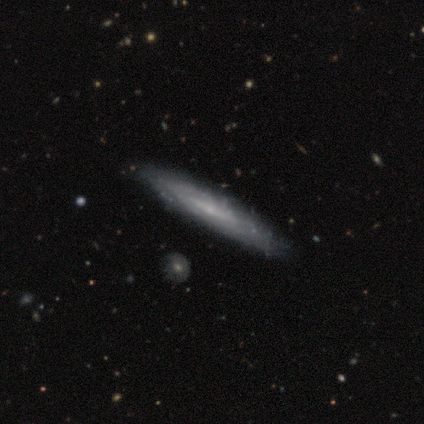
This appears to be a featured or disk galaxy (60%) with a weak bar (100%), tight (50%, tied with medium) spiral arms (100%) and a small central bulge (100%). Merging: none (60%).